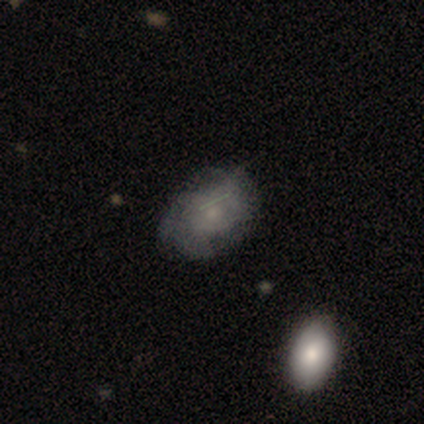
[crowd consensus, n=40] This is likely a smooth galaxy (65%). How rounded: clearly in between (88%). Merging: likely none (75%).